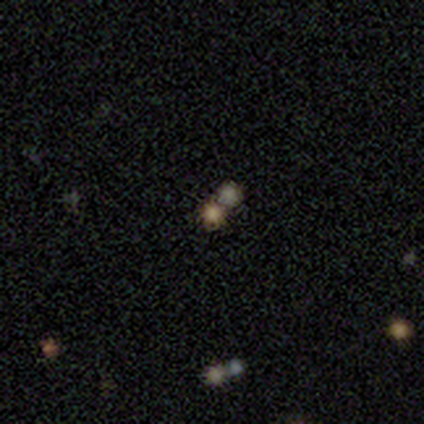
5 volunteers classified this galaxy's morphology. This appears to be a star or artifact, not a galaxy (80%).